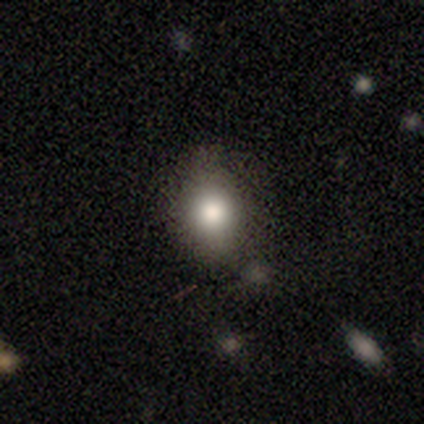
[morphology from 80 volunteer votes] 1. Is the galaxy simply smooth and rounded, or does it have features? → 86% smooth, 9% featured or disk, 5% star or artifact.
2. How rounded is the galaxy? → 54% in between, 45% round, 1% cigar-shaped.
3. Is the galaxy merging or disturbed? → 74% none, 20% minor disturbance, 4% merger, 3% major disturbance.